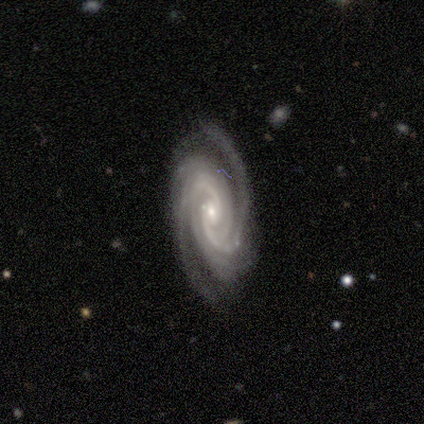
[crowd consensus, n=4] smooth-or-featured: featured or disk: 100% | smooth: 0% | star or artifact: 0%
  disk-edge-on: no: 100% | yes: 0%
    bar: no: 100% | strong: 0% | weak: 0%
    has-spiral-arms: yes: 100% | no: 0%
      spiral-winding: tight: 50% (tied) | medium: 50% (tied) | loose: 0%
      spiral-arm-count: 2: 50% | 4: 25% | can't tell: 25% | 1: 0% | 3: 0% | more than 4: 0%
    bulge-size: small: 75% | moderate: 25% | dominant: 0% | large: 0% | none: 0%
  merging: none: 75% | minor disturbance: 25% | major disturbance: 0% | merger: 0%